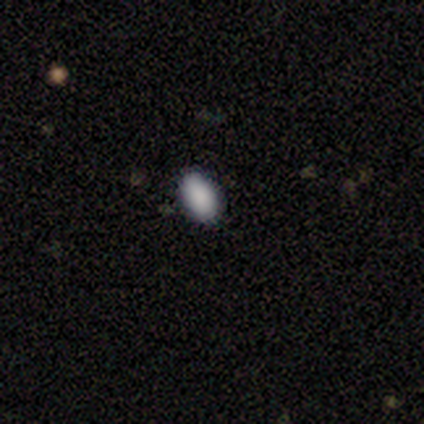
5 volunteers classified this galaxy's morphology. Overall: smooth (100%). How rounded: in between (100%). Merging: none (100%).